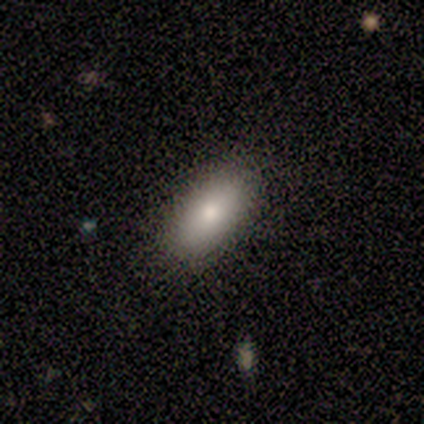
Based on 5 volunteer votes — This appears to be a smooth galaxy with no disk features (80%) that is in between round and cigar-shaped (100%). Merging: none (100%).